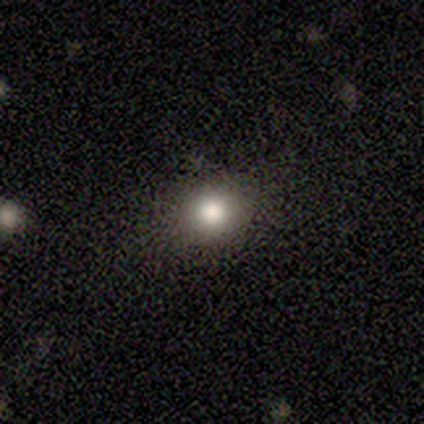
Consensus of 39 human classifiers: This appears to be a smooth galaxy with no disk features (82%) that is round (75%). Merging: none (83%).